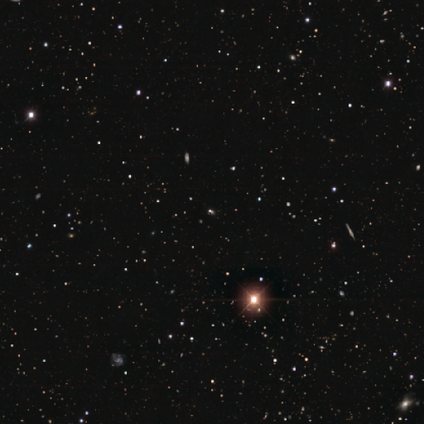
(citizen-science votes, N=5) This is clearly a star or artifact rather than a galaxy (100%).